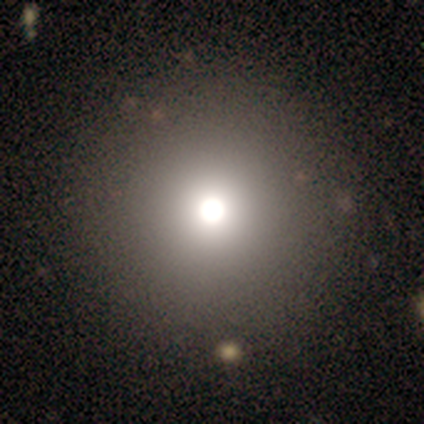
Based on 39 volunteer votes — This appears to be a smooth galaxy with no disk features (79%) that is round (100%). Merging: none (69%).